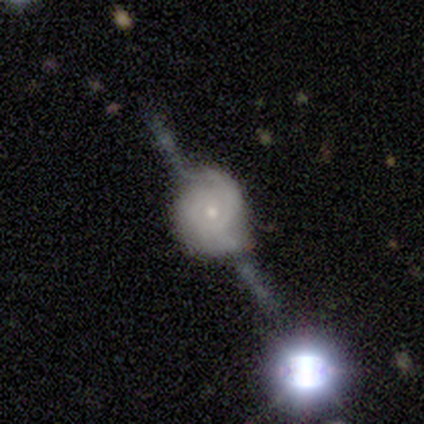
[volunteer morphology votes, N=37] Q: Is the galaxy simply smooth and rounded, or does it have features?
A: featured or disk — 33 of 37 (89%).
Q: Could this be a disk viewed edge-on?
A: no — 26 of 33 (79%).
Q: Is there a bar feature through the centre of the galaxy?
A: no — 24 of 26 (92%).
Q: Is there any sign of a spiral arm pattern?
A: yes — 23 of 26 (88%).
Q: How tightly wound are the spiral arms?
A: tight — 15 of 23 (65%).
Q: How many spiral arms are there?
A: can't tell — 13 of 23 (57%).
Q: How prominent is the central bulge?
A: small — 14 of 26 (54%).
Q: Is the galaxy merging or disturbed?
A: none — 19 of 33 (58%).